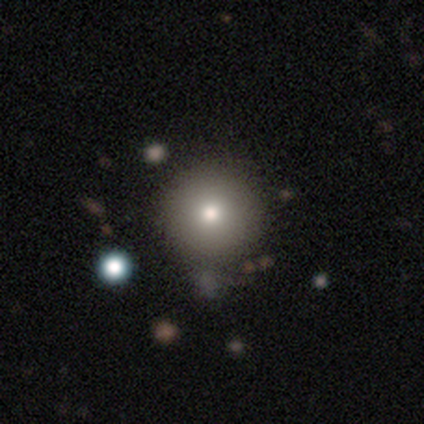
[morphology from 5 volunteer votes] This is clearly a smooth galaxy (100%). How rounded: clearly round (100%). Merging: clearly none (80%).